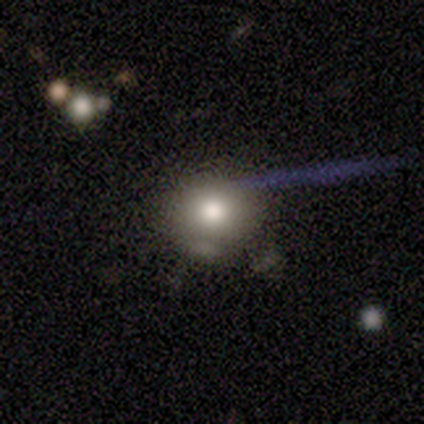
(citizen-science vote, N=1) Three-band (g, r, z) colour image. It shows a smooth galaxy with no disk features (100%) that is in between round and cigar-shaped (100%). Merging: none (100%).